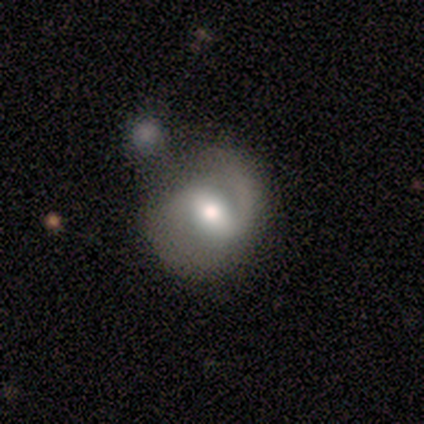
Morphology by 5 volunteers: This is clearly a featured or disk galaxy (80%). It is clearly not viewed edge-on (100%). Bar: possibly weak (50%). Spiral arm pattern: possibly yes (50%, tied with no). Spiral arm count: clearly 2 (100%). Spiral winding: possibly medium (50%, tied with loose). Central bulge: possibly moderate (50%). Merging: likely minor disturbance (60%).